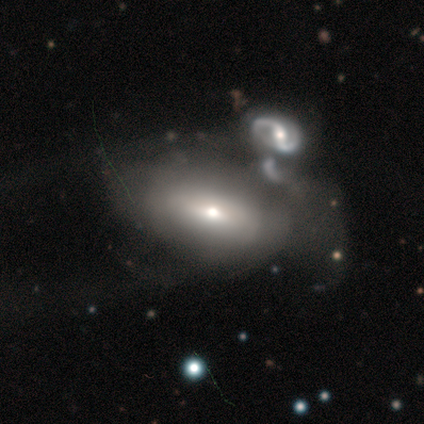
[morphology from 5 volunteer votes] Smooth or featured: featured or disk — 60% (smooth — 40%)
Edge-on disk: no — 100%
Bar: weak — 67% (strong — 33%)
Spiral arms: no — 100%
Bulge size: moderate — 67% (small — 33%)
Merging: merger — 60% (minor disturbance — 40%)